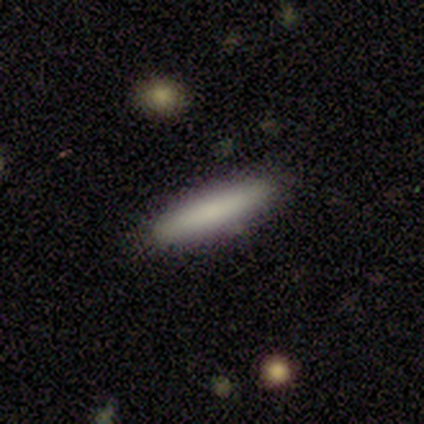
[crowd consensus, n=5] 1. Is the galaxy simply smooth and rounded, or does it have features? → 80% smooth, 20% star or artifact, 0% featured or disk.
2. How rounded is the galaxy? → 75% cigar-shaped, 25% in between, 0% round.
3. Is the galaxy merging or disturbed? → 50% none, 25% minor disturbance, 25% major disturbance, 0% merger.